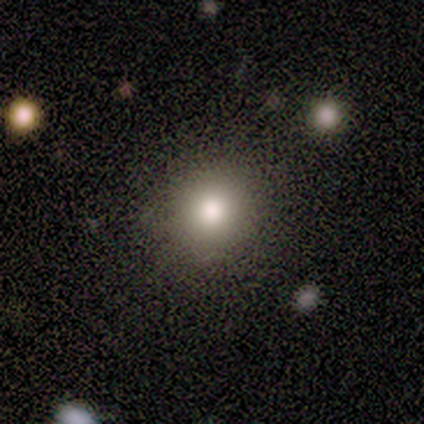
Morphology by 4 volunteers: A smooth galaxy with no disk features (50%, tied with star or artifact) that is round (100%).

Vote fractions:
- Smooth or featured? smooth: 50% (tied) / star or artifact: 50% (tied) / featured or disk: 0%
- How rounded? round: 100% / in between: 0% / cigar-shaped: 0%
- Merging? none: 100% / minor disturbance: 0% / major disturbance: 0% / merger: 0%